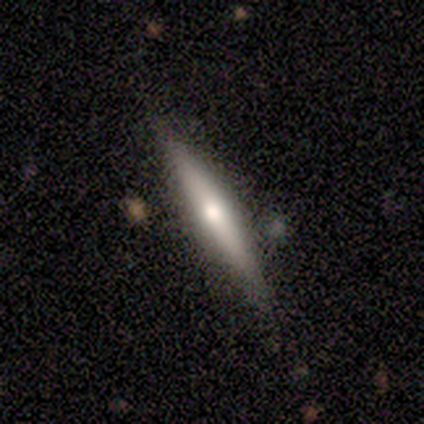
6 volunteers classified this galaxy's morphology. Overall: featured or disk (67%; smooth 33%). Edge-on disk: yes (100%). Edge-on bulge: rounded (100%). Merging: none (67%; minor disturbance 33%).